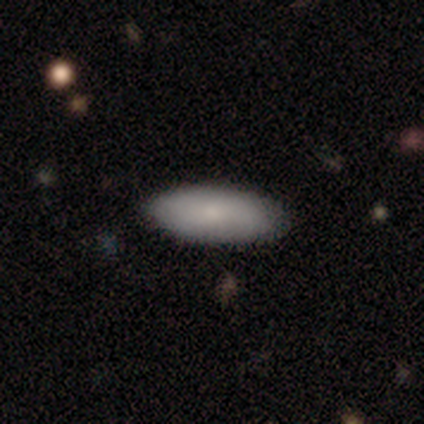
smooth-or-featured: smooth: 100% | featured or disk: 0% | star or artifact: 0%
  how-rounded: in between: 60% | cigar-shaped: 40% | round: 0%
  merging: none: 100% | minor disturbance: 0% | major disturbance: 0% | merger: 0%